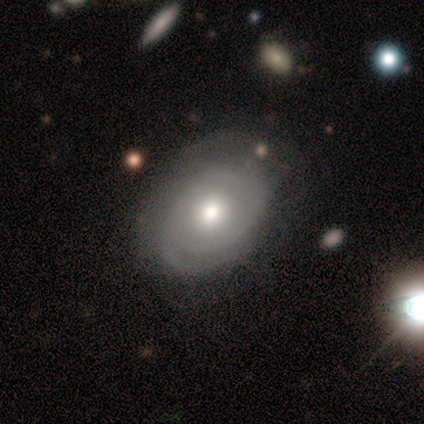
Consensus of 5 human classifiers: smooth_or_featured: featured or disk (p=0.80) [alt: smooth p=0.20]
disk_edge_on: no (p=1.00)
bar: no (p=1.00)
has_spiral_arms: yes (p=0.75) [alt: no p=0.25]
spiral_winding: tight (p=0.67) [alt: medium p=0.33]
spiral_arm_count: 2 (p=0.67) [alt: can't tell p=0.33]
bulge_size: moderate (p=0.75) [alt: large p=0.25]
merging: none (p=1.00)